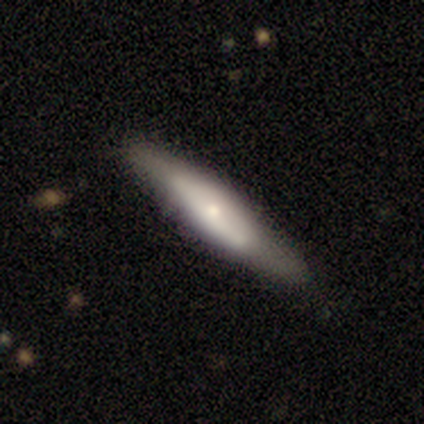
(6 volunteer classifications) smooth_or_featured: featured or disk (p=0.67) [alt: smooth p=0.33]
disk_edge_on: yes (p=1.00)
edge_on_bulge: rounded (p=1.00)
merging: none (p=0.83) [alt: minor disturbance p=0.17]